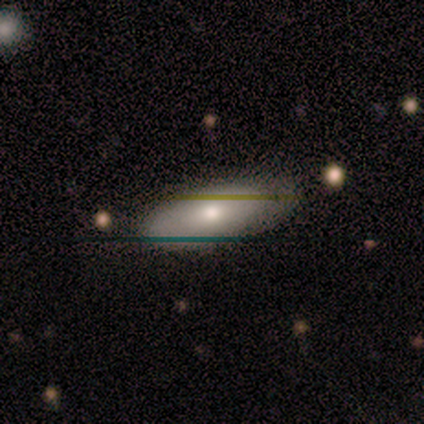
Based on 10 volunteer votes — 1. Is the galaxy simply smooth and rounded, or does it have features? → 70% smooth, 20% featured or disk, 10% star or artifact.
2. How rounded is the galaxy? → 57% in between, 43% cigar-shaped, 0% round.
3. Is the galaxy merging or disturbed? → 67% none, 33% minor disturbance, 0% major disturbance, 0% merger.